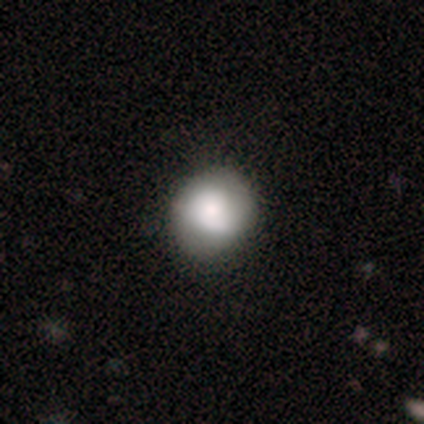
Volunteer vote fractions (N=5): Overall: smooth (40%, tied with star or artifact). How rounded: round (100%). Merging: none (100%).